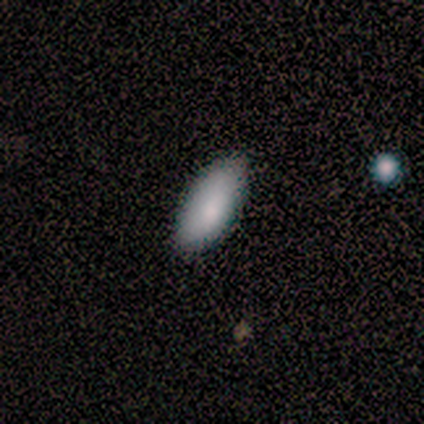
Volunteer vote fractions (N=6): Volunteers were most divided on "how rounded": in between: 83%, cigar-shaped: 17%, round: 0%. More confident: smooth or featured — smooth (100%); merging — none (100%).